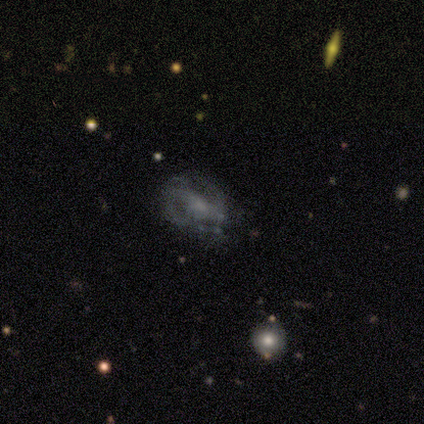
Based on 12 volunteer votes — Overall: featured or disk (75%). Edge-on disk: no (89%). Bar: no (50%; weak 38%). Spiral arms: yes (75%). Spiral arm count: 2 (67%). Spiral winding: loose (50%; medium 33%). Bulge size: moderate (38%, tied with small). Merging: none (64%).